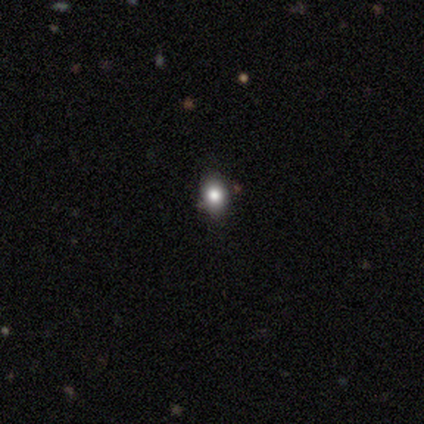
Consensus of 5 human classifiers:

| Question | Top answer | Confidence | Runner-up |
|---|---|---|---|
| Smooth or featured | smooth | 80% | featured or disk (20%) |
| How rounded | round | 50% | tied: in between (50%) |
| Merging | none | 60% | minor disturbance (20%) |